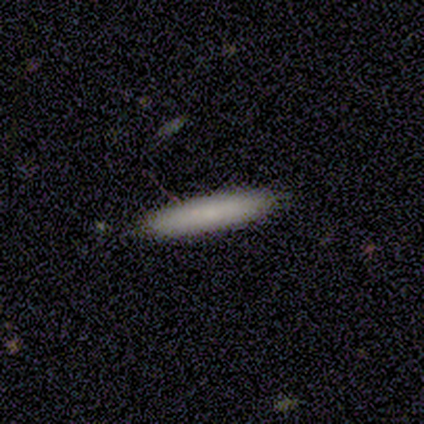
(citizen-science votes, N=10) A smooth galaxy with no disk features (100%) that is cigar-shaped (100%).

Vote fractions:
- Smooth or featured? smooth: 100% / featured or disk: 0% / star or artifact: 0%
- How rounded? cigar-shaped: 100% / round: 0% / in between: 0%
- Merging? none: 90% / minor disturbance: 10% / major disturbance: 0% / merger: 0%